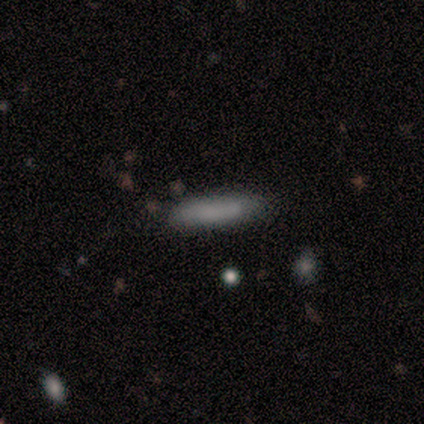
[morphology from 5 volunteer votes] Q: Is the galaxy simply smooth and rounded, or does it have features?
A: smooth — 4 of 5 (80%).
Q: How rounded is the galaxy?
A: cigar-shaped — 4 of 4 (100%).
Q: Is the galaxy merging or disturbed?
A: none — 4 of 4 (100%).